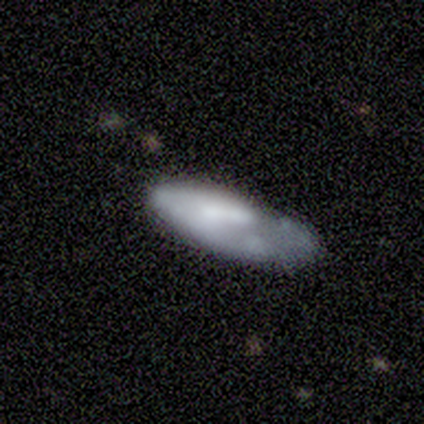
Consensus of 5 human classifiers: Overall: featured or disk (60%; smooth 40%). Edge-on disk: no (100%). Bar: no (67%; weak 33%). Spiral arms: no (100%). Bulge size: moderate (67%; none 33%). Merging: none (40%, tied with minor disturbance).